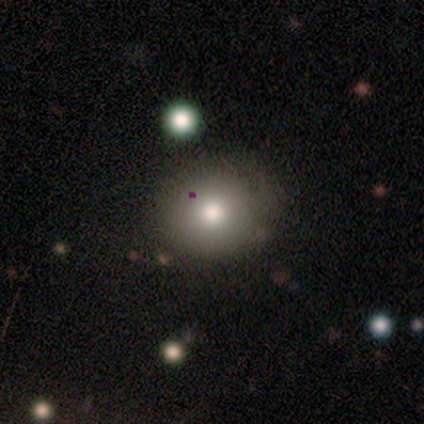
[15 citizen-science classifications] Q: Smooth or featured?
A: smooth (93%); runner-up: star or artifact (7%)
Q: How rounded?
A: round (79%); runner-up: in between (21%)
Q: Merging?
A: none (93%); runner-up: minor disturbance (7%)